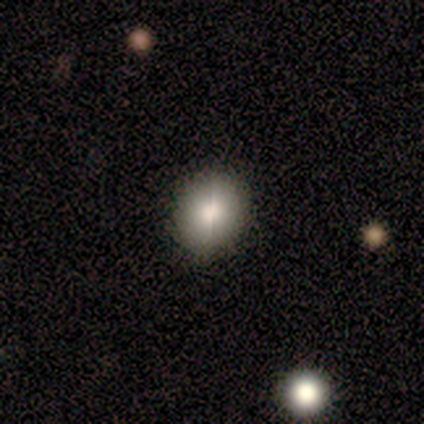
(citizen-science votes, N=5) smooth_or_featured: smooth (p=0.60) [alt: featured or disk p=0.20]
how_rounded: round (p=0.67) [alt: in between p=0.33]
merging: none (p=1.00)